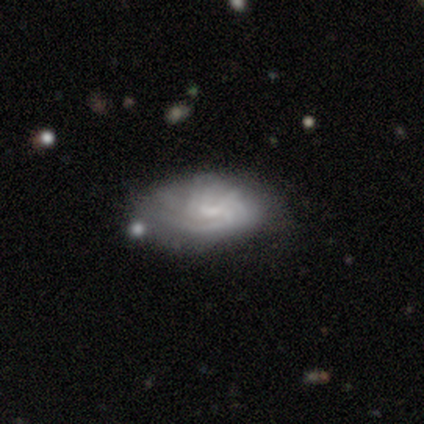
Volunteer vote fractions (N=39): Overall: featured or disk (64%; smooth 33%). Edge-on disk: no (100%). Bar: no (60%; weak 36%). Spiral arms: yes (92%). Spiral arm count: can't tell (70%). Spiral winding: tight (70%). Bulge size: small (52%; none 36%). Merging: none (68%).